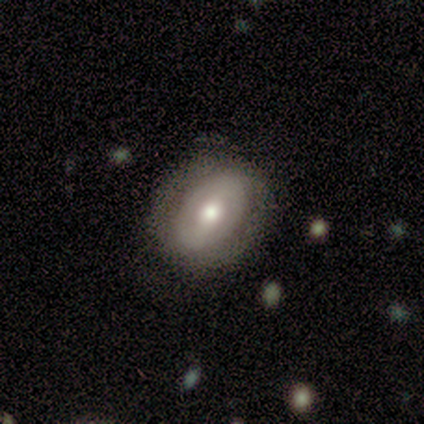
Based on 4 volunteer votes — Volunteers were most divided on "spiral arm count" (2-way tie): 2: 50%, can't tell: 50%, 1: 0%, 3: 0%, 4: 0%, more than 4: 0%. More confident: edge-on disk — no (100%); spiral winding — tight (100%); smooth or featured — featured or disk (75%); merging — none (75%); bar — weak (67%); spiral arms — yes (67%); bulge size — moderate (67%).